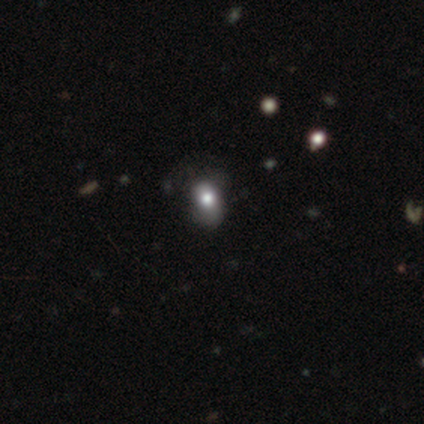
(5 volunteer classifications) This is likely a star or artifact rather than a galaxy (60%).